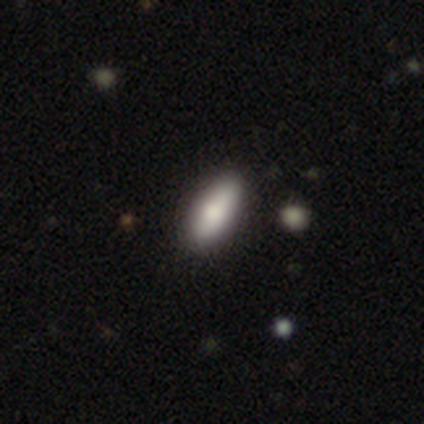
A smooth galaxy with no disk features (80%) that is in between round and cigar-shaped (75%).

Vote fractions:
- Smooth or featured? smooth: 80% / star or artifact: 20% / featured or disk: 0%
- How rounded? in between: 75% / cigar-shaped: 25% / round: 0%
- Merging? none: 100% / minor disturbance: 0% / major disturbance: 0% / merger: 0%